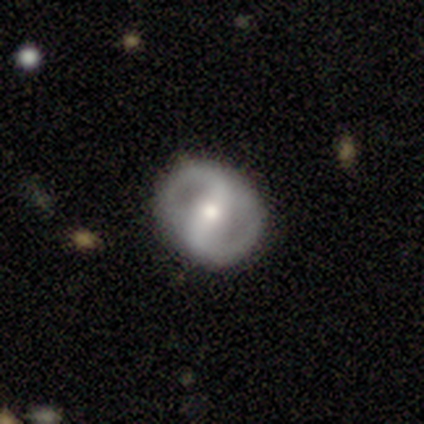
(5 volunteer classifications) Morphology: type=featured or disk (80%); edge-on=no (100%); bar=strong (50%, tied with weak); spiral arms=yes (100%); winding=tight (75%); arm count=2 (75%); bulge=moderate (50%, tied with small); merging=none (100%).